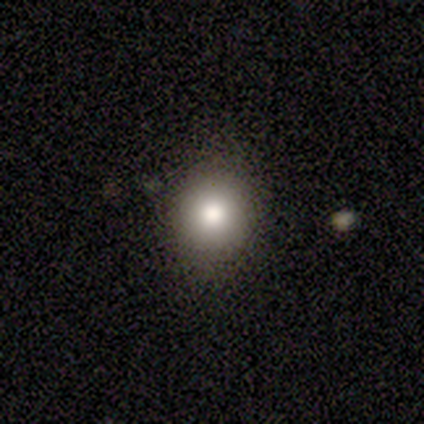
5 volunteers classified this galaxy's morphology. Smooth or featured?
  - smooth: 100% *
  - featured or disk: 0%
  - star or artifact: 0%
How rounded?
  - round: 100% *
  - in between: 0%
  - cigar-shaped: 0%
Merging?
  - none: 100% *
  - minor disturbance: 0%
  - major disturbance: 0%
  - merger: 0%